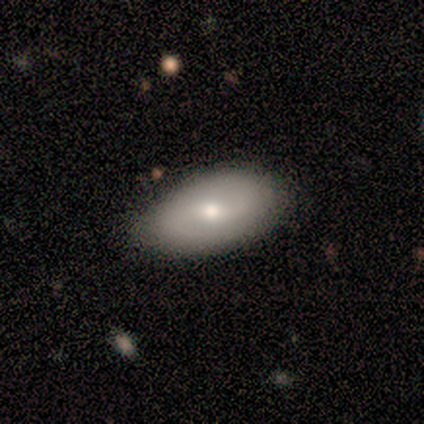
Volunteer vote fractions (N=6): Smooth or featured? 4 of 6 (67%) said featured or disk. Edge-on disk? 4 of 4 (100%) said no. Bar? 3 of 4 (75%) said no. Spiral arms? 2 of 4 (50%, tied with no) said yes. Spiral winding? 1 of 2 (50%, tied with loose) said medium. Spiral arm count? 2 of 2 (100%) said 2. Bulge size? 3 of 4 (75%) said small. Merging? 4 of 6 (67%) said none.